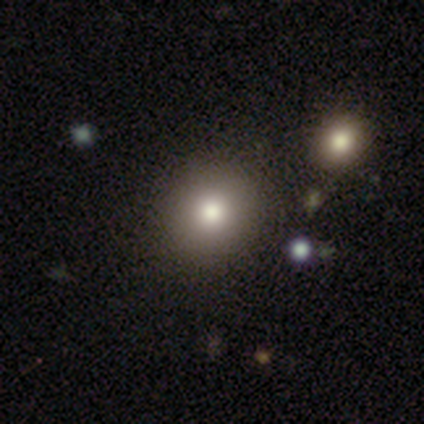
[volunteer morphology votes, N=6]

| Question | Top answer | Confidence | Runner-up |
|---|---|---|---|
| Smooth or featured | smooth | 100% | — |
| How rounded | round | 100% | — |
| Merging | none | 100% | — |